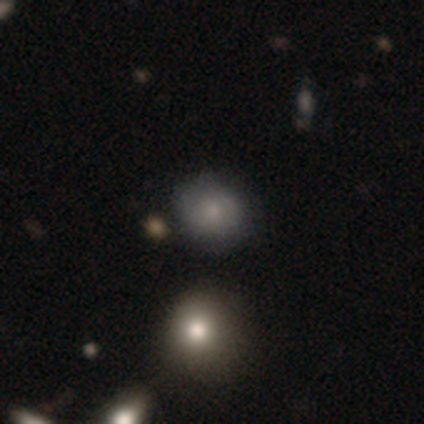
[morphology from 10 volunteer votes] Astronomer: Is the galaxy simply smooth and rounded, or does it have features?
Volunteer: smooth — 50% (runner-up: featured or disk, 30%).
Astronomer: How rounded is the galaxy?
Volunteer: round — 80%.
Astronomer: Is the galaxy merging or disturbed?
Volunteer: none — 75%.